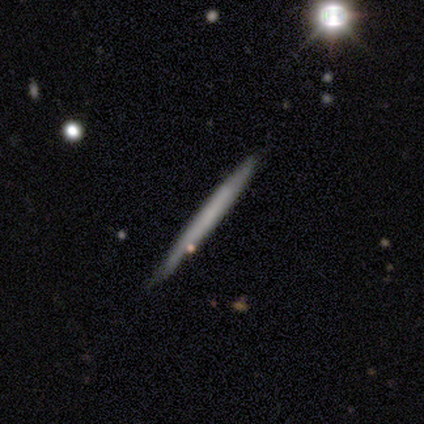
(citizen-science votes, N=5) Smooth or featured: smooth — 80% (featured or disk — 20%)
How rounded: cigar-shaped — 100%
Merging: none — 80% (minor disturbance — 20%)